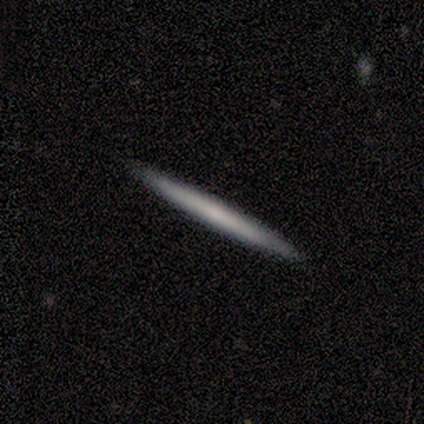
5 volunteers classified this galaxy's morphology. Smooth or featured? 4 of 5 (80%) said featured or disk. Edge-on disk? 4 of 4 (100%) said yes. Edge-on bulge? 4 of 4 (100%) said none. Merging? 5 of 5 (100%) said none.